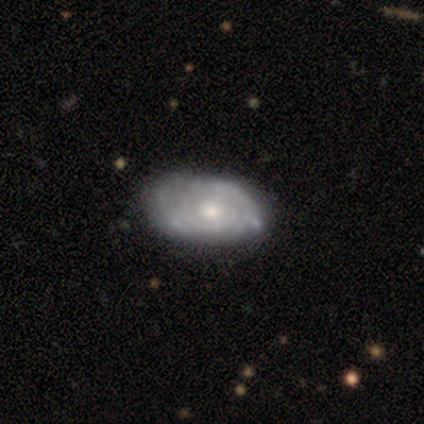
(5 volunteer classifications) Smooth or featured?
  - featured or disk: 80% *
  - smooth: 20%
  - star or artifact: 0%
Edge-on disk?
  - no: 100% *
  - yes: 0%
Bar?
  - no: 75% *
  - weak: 25%
  - strong: 0%
Spiral arms?
  - yes: 75% *
  - no: 25%
Spiral winding?
  - medium: 100% *
  - tight: 0%
  - loose: 0%
Spiral arm count?
  - 2: 33% * (tied)
  - 3: 33% * (tied)
  - can't tell: 33% * (tied)
  - 1: 0%
  - 4: 0%
  - more than 4: 0%
Bulge size?
  - moderate: 50% *
  - large: 25%
  - small: 25%
  - dominant: 0%
  - none: 0%
Merging?
  - none: 60% *
  - minor disturbance: 40%
  - major disturbance: 0%
  - merger: 0%